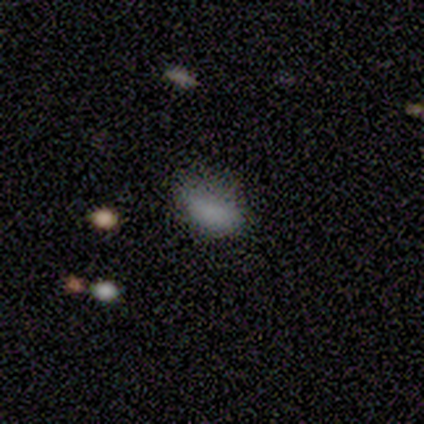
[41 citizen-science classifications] Smooth or featured? 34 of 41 (83%) said smooth. How rounded? 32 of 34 (94%) said in between. Merging? 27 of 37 (73%) said none.